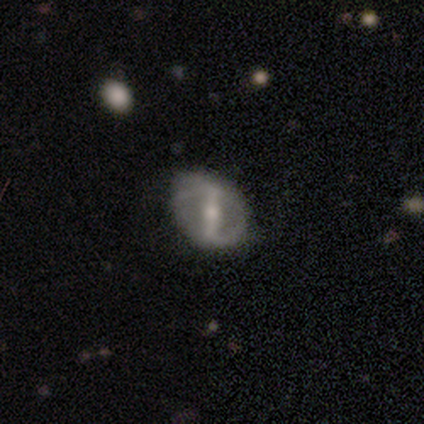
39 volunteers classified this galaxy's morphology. A featured or disk galaxy (79%) with a strong bar (84%), 2 (80%) loose (50%) spiral arms (65%) and a moderate central bulge (61%). Merging: none (38%).